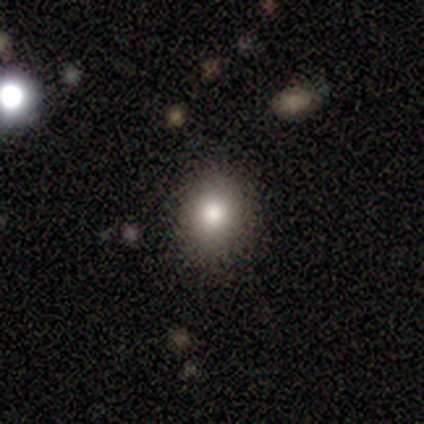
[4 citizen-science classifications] Smooth or featured? 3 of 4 (75%) said smooth. How rounded? 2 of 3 (67%) said round. Merging? 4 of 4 (100%) said none.